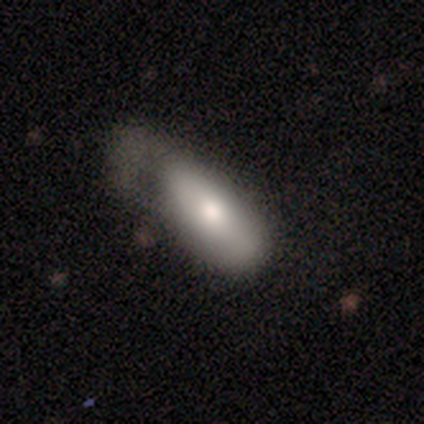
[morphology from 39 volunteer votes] smooth 67%, featured or disk 26%, star or artifact 8%. Down the decision tree: how rounded — in between (65%); merging — major disturbance (58%).